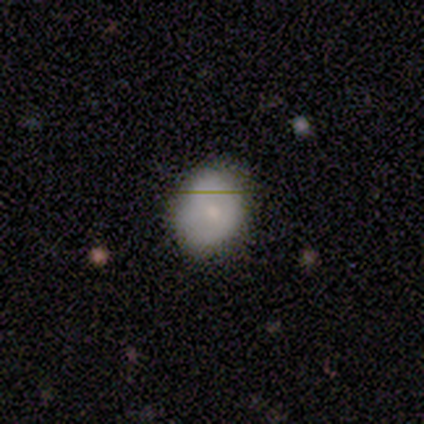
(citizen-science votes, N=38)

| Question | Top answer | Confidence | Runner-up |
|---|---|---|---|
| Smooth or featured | smooth | 66% | featured or disk (24%) |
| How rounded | round | 52% | in between (48%) |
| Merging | none | 74% | minor disturbance (12%) |